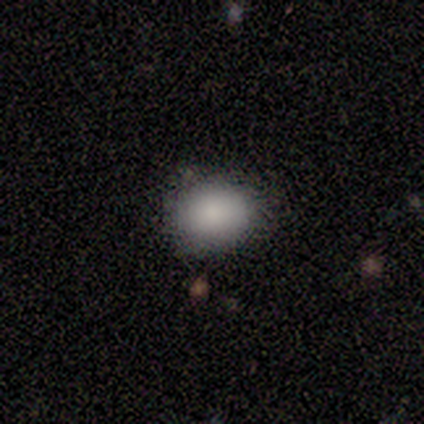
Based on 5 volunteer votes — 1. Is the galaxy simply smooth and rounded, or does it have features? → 100% smooth, 0% featured or disk, 0% star or artifact.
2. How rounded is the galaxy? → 60% round, 40% in between, 0% cigar-shaped.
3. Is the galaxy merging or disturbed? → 60% none, 40% minor disturbance, 0% major disturbance, 0% merger.